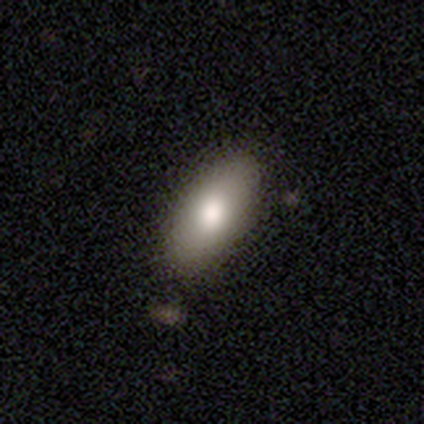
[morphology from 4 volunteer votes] This is clearly a smooth galaxy (100%). How rounded: likely in between (75%). Merging: clearly none (100%).